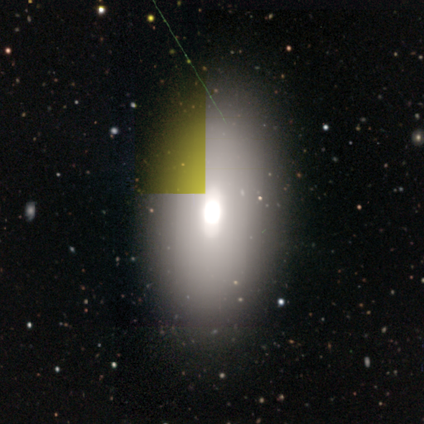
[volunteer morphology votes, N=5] type=smooth (60%); roundness=in between (100%); merging=none (100%).